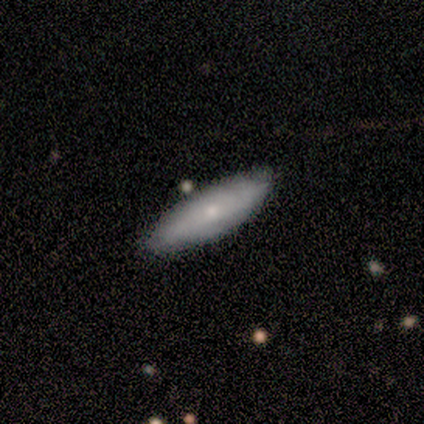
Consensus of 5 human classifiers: Smooth or featured: smooth — 80% (featured or disk — 20%)
How rounded: in between — 75% (cigar-shaped — 25%)
Merging: none — 80% (minor disturbance — 20%)